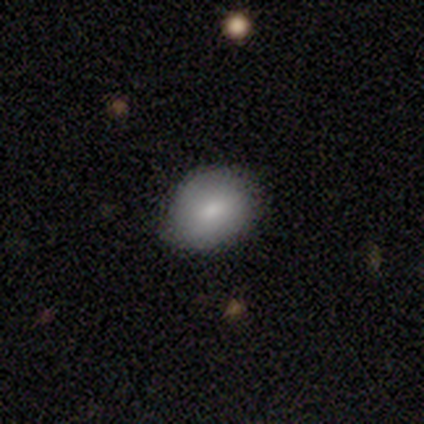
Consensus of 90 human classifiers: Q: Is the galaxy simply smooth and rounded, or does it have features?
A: smooth — 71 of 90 (79%).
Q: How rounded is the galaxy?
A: in between — 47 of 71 (66%).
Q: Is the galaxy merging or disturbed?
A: none — 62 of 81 (77%).